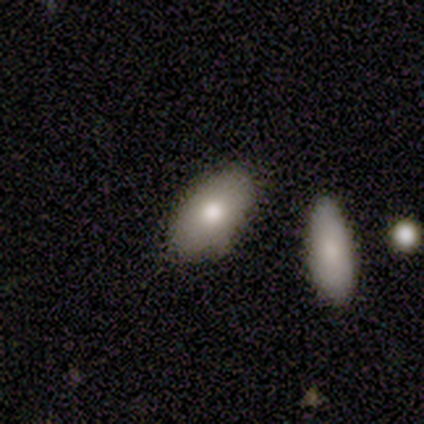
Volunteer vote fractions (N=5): Smooth or featured: smooth — 60% (featured or disk — 20%)
How rounded: in between — 100%
Merging: none — 75% (minor disturbance — 25%)